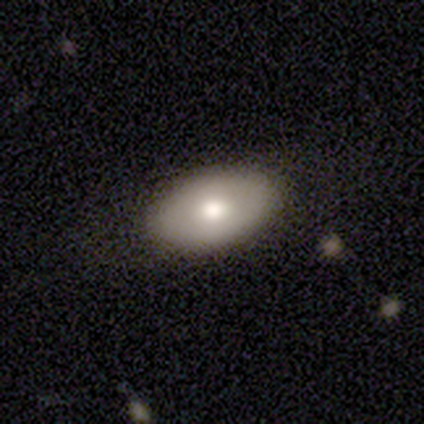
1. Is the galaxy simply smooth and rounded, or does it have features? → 72% smooth, 28% featured or disk, 0% star or artifact.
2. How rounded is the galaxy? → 86% in between, 11% round, 4% cigar-shaped.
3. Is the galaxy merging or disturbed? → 92% none, 8% minor disturbance, 0% major disturbance, 0% merger.